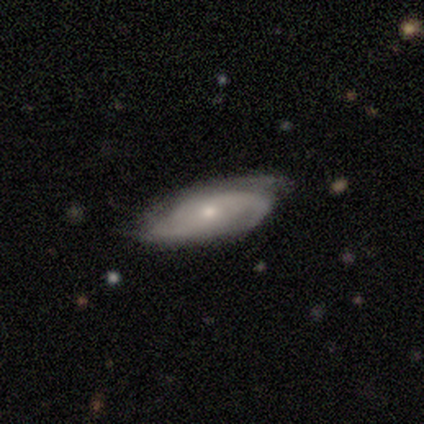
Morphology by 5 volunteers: A featured or disk galaxy (80%) with no bar (50%), 2 (50%) medium (75%) spiral arms (100%) and a moderate central bulge (50%, tied with small).

Vote fractions:
- Smooth or featured? featured or disk: 80% / smooth: 20% / star or artifact: 0%
- Edge-on disk? no: 100% / yes: 0%
- Bar? no: 50% / strong: 25% / weak: 25%
- Spiral arms? yes: 100% / no: 0%
- Spiral winding? medium: 75% / loose: 25% / tight: 0%
- Spiral arm count? 2: 50% / 3: 25% / can't tell: 25% / 1: 0% / 4: 0% / more than 4: 0%
- Bulge size? moderate: 50% (tied) / small: 50% (tied) / dominant: 0% / large: 0% / none: 0%
- Merging? none: 80% / major disturbance: 20% / minor disturbance: 0% / merger: 0%